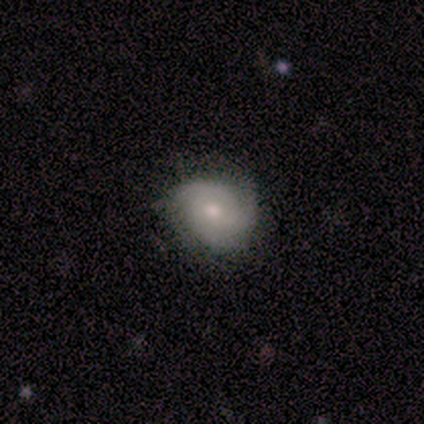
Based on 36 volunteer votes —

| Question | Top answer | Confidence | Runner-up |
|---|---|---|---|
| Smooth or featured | featured or disk | 61% | smooth (31%) |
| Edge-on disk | no | 100% | — |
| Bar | no | 73% | weak (27%) |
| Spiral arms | yes | 82% | no (18%) |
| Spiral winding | tight | 61% | medium (33%) |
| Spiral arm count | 3 | 72% | 2 (22%) |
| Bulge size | small | 50% | moderate (45%) |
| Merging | none | 79% | minor disturbance (21%) |